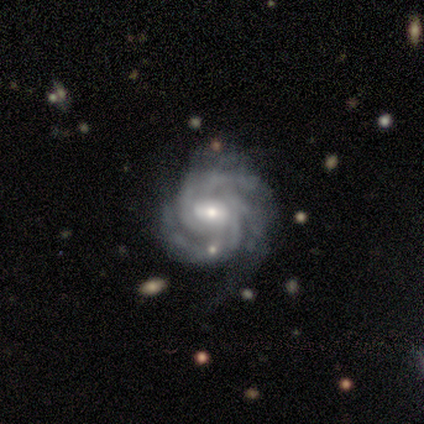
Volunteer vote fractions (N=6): Smooth or featured? 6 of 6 (100%) said featured or disk. Edge-on disk? 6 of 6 (100%) said no. Bar? 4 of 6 (67%) said weak. Spiral arms? 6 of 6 (100%) said yes. Spiral winding? 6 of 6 (100%) said tight. Spiral arm count? 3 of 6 (50%) said 3. Bulge size? 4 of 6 (67%) said small. Merging? 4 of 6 (67%) said minor disturbance.